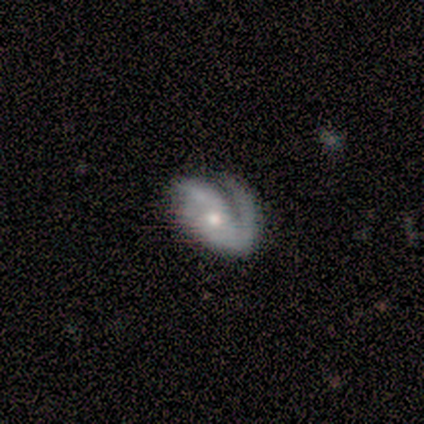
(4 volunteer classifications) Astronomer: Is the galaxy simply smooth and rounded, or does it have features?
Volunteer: featured or disk — 100%.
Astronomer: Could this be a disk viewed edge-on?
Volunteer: no — 100%.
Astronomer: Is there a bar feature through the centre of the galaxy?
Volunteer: no — 100%.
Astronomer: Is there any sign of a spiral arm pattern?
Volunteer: yes — 100%.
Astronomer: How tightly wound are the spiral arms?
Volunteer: medium — 75%.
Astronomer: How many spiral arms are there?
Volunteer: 2 — 100%.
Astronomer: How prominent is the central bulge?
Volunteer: moderate — 100%.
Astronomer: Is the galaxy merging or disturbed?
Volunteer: major disturbance — 50%.